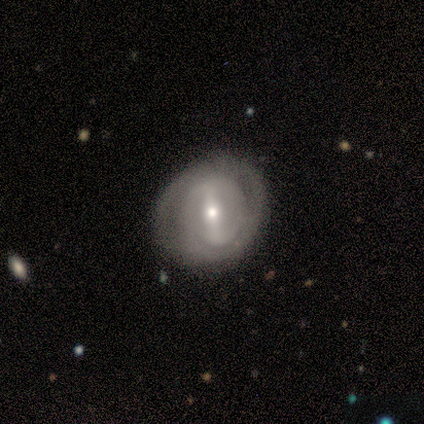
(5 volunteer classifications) This is clearly a featured or disk galaxy (100%). It is clearly not viewed edge-on (100%). Bar: clearly strong (80%). Spiral arm pattern: likely no (60%). Central bulge: likely small (60%). Merging: likely none (60%).